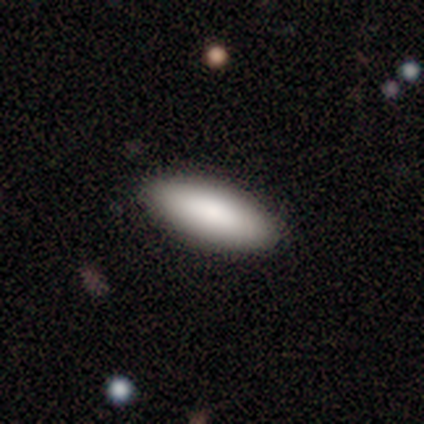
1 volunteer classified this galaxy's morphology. smooth_or_featured: smooth (p=1.00)
how_rounded: cigar-shaped (p=1.00)
merging: none (p=1.00)